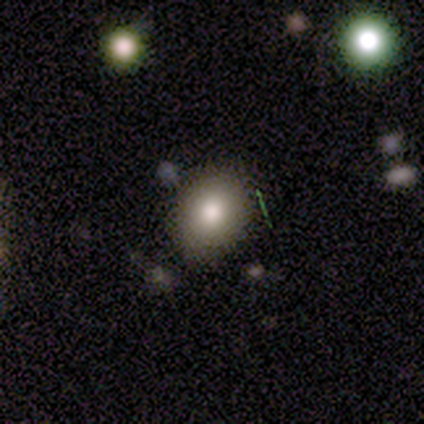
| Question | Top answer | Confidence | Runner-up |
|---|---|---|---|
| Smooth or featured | smooth | 60% | featured or disk (20%) |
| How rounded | round | 67% | in between (33%) |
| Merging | none | 100% | — |